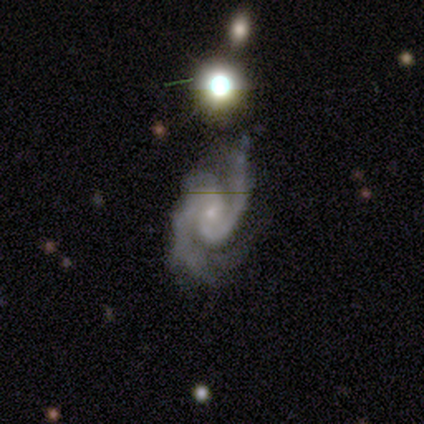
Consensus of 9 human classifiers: Overall: featured or disk (89%). Edge-on disk: no (100%). Bar: no (62%; weak 38%). Spiral arms: yes (100%). Spiral arm count: 2 (62%; 3 25%). Spiral winding: tight (38%, tied with medium). Bulge size: small (100%). Merging: none (88%).